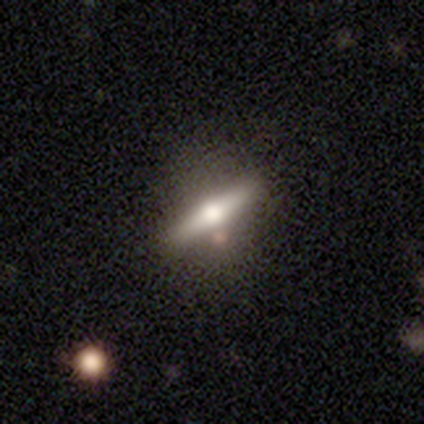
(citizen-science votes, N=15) Smooth or featured: featured or disk — 80% (smooth — 20%)
Edge-on disk: yes — 100%
Edge-on bulge: rounded — 100%
Merging: none — 73% (minor disturbance — 13%)